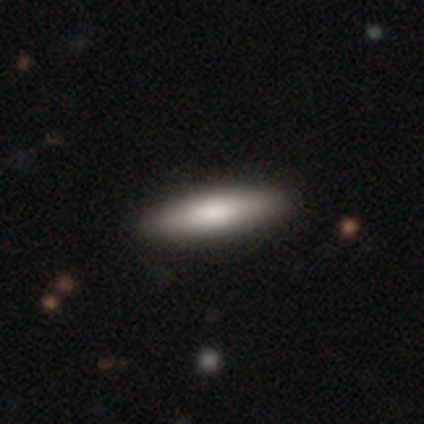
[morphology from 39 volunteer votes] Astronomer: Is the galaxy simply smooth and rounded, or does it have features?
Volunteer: smooth — 79%.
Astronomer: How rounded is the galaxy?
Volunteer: cigar-shaped — 71%.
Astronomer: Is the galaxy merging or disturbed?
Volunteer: none — 63%.